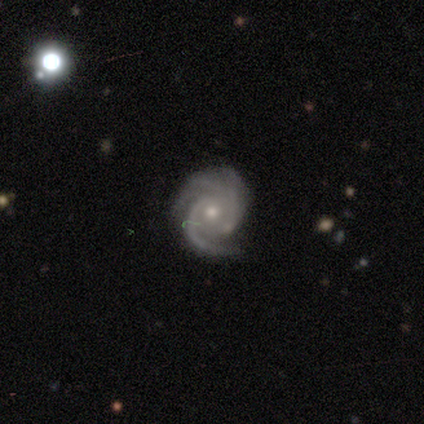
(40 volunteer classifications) Smooth or featured: featured or disk — 90% (star or artifact — 8%)
Edge-on disk: no — 97% (yes — 3%)
Bar: no — 74% (weak — 23%)
Spiral arms: yes — 100%
Spiral winding: tight — 77% (medium — 17%)
Spiral arm count: 2 — 37% (3 — 29%)
Bulge size: small — 57% (moderate — 43%)
Merging: none — 73% (minor disturbance — 22%)